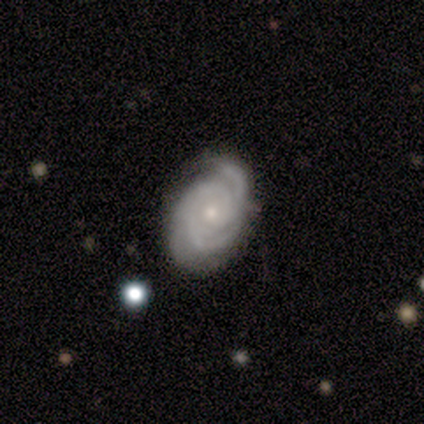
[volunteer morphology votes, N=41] Smooth or featured? featured or disk (90%)
Edge-on disk? no (97%)
Bar? no (69%)
Spiral arms? yes (100%)
Spiral winding? tight (61%)
Spiral arm count? 3 (53%)
Bulge size? small (72%)
Merging? none (65%)